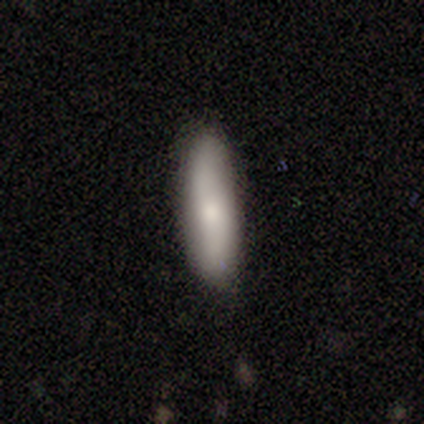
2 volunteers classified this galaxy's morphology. smooth 100%, featured or disk 0%, star or artifact 0%. Down the decision tree: how rounded — in between (50%, tied with cigar-shaped); merging — none (100%).